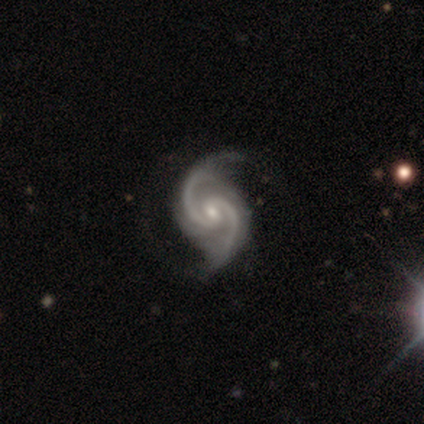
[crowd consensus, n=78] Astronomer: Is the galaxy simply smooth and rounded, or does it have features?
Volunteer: featured or disk — 94%.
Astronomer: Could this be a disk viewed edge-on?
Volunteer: no — 99%.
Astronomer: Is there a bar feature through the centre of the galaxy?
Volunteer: weak — 65%.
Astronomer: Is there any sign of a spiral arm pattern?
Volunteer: yes — 99%.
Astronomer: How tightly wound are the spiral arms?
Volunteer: medium — 61%.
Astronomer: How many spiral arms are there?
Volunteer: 2 — 96%.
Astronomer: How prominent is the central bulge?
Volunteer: small — 68%.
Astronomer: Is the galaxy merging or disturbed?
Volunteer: none — 37%.